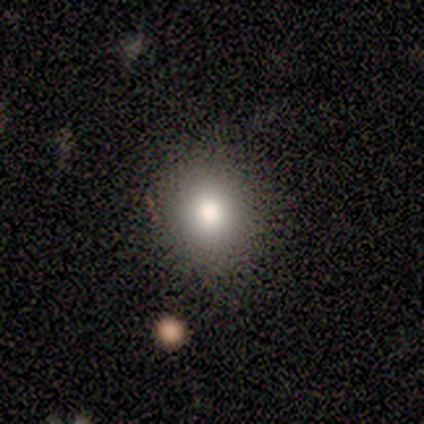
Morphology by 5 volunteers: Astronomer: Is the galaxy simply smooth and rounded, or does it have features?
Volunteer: smooth — 100%.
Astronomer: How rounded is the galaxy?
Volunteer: round — 100%.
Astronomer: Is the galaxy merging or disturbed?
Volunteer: none — 80%.